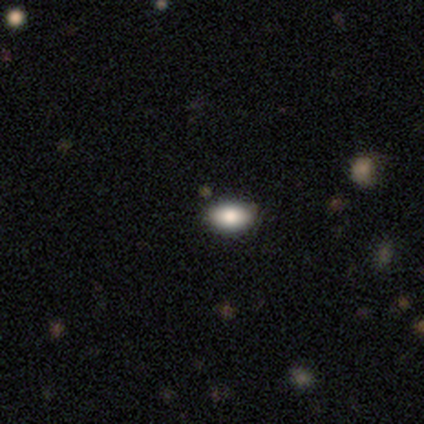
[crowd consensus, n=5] Smooth or featured? smooth (80%)
How rounded? in between (75%)
Merging? none (100%)